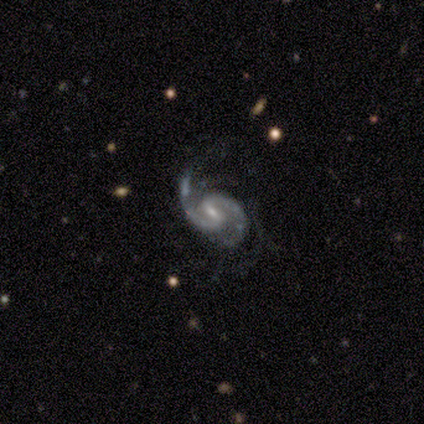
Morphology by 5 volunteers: Smooth or featured: featured or disk — 100%
Edge-on disk: no — 100%
Bar: weak — 60% (strong — 40%)
Spiral arms: yes — 100%
Spiral winding: medium — 40% (tied with loose — 40%)
Spiral arm count: 2 — 60% (3 — 20%)
Bulge size: small — 60% (moderate — 40%)
Merging: major disturbance — 40% (none — 20%)